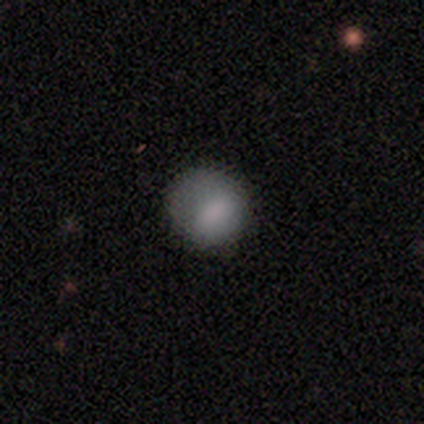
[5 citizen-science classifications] Overall: smooth (100%). How rounded: round (60%; in between 40%). Merging: none (80%).